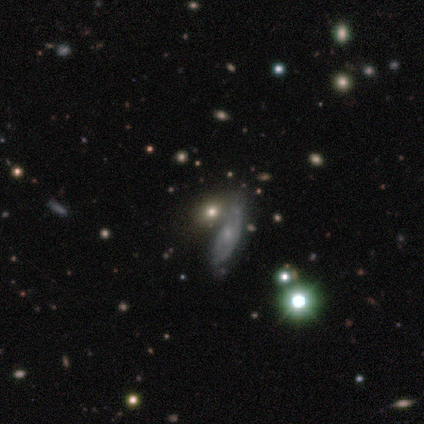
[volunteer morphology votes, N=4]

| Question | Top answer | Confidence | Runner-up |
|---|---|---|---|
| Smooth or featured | featured or disk | 75% | smooth (25%) |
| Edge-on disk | no | 100% | — |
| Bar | no | 67% | weak (33%) |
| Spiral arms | no | 67% | yes (33%) |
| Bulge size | small | 67% | moderate (33%) |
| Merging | none | 75% | minor disturbance (25%) |